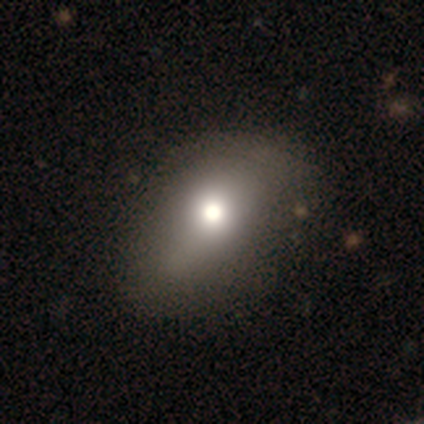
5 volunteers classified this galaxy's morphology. Q: Smooth or featured?
A: smooth (80%); runner-up: featured or disk (20%)
Q: How rounded?
A: in between (100%)
Q: Merging?
A: none (80%); runner-up: minor disturbance (20%)